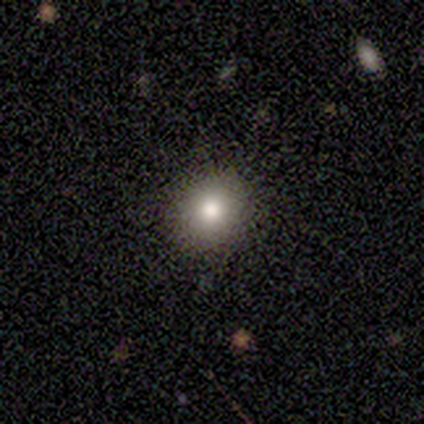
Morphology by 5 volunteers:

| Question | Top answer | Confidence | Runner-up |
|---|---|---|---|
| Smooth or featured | smooth | 60% | star or artifact (40%) |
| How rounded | round | 100% | — |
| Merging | none | 100% | — |